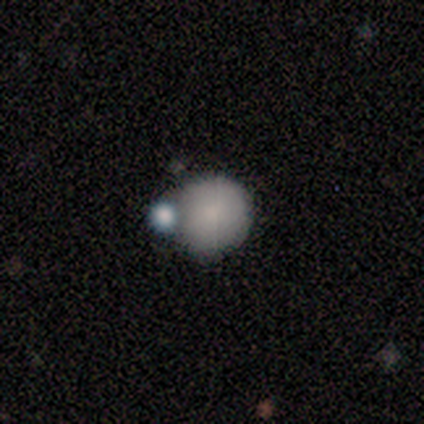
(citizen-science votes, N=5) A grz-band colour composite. It shows a smooth galaxy with no disk features (80%) that is round (100%). Merging: none (75%).